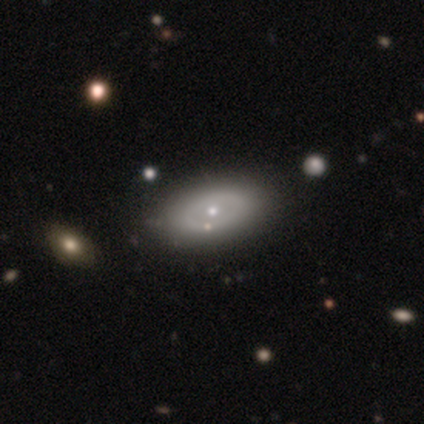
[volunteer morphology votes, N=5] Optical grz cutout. It shows a smooth galaxy with no disk features (60%) that is in between round and cigar-shaped (100%). Merging: none (60%).